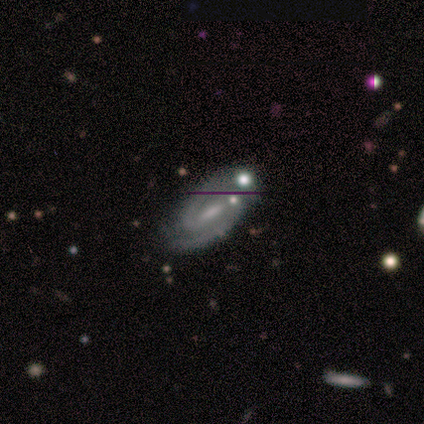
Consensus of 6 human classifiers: Smooth or featured? featured or disk (100%)
Edge-on disk? no (83%)
Bar? weak (60%)
Spiral arms? yes (100%)
Spiral winding? medium (60%)
Spiral arm count? 2 (80%)
Bulge size? small (80%)
Merging? none (83%)